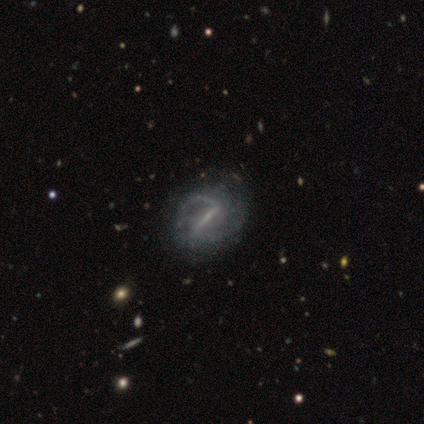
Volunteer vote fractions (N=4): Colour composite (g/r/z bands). It shows a featured or disk galaxy (100%) with a strong bar (50%, tied with weak), 2 (50%) medium (100%) spiral arms (100%) and a small central bulge (50%). Merging: none (75%).